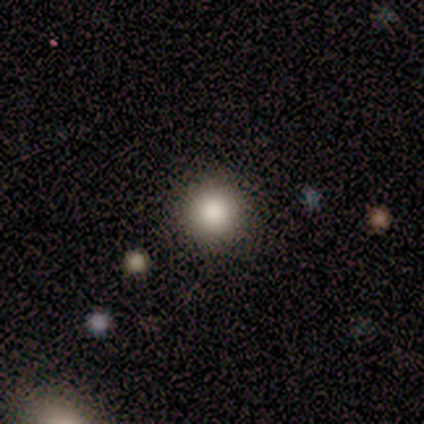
This appears to be a smooth galaxy with no disk features (80%) that is round (100%). Merging: none (100%).